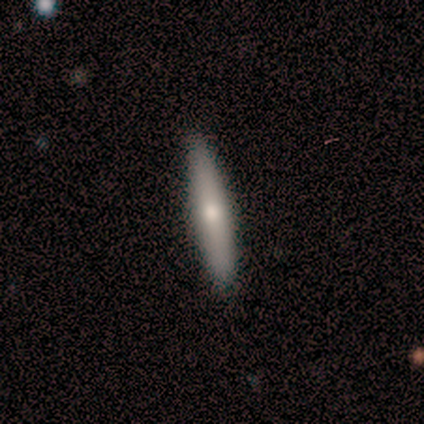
Overall: smooth (40%, tied with featured or disk). How rounded: cigar-shaped (100%). Merging: none (100%).